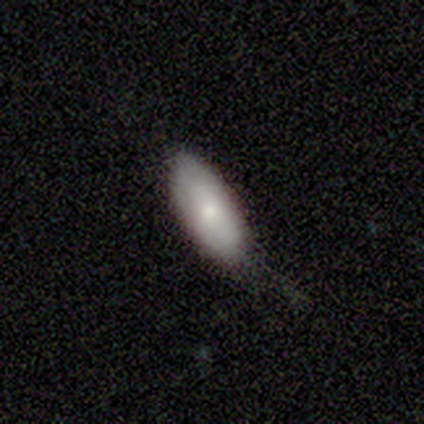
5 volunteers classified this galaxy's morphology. Smooth or featured? smooth (80%)
How rounded? in between (100%)
Merging? none (75%)